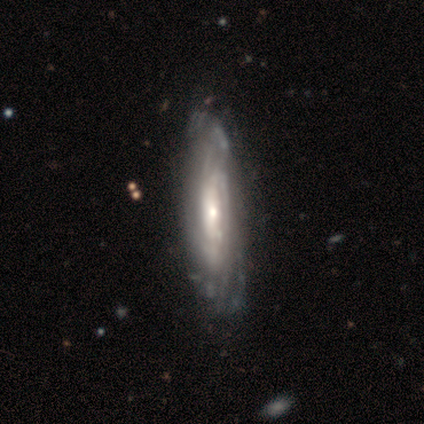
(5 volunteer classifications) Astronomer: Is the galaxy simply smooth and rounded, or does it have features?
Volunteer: featured or disk — 80%.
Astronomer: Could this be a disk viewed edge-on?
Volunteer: yes — 75%.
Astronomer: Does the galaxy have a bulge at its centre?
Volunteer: rounded — 100%.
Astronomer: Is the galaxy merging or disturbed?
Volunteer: none — 80%.